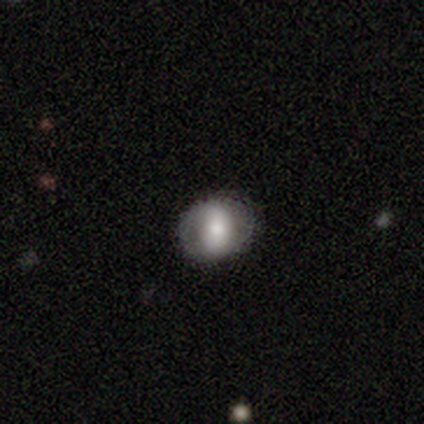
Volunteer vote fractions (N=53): This is possibly a smooth galaxy (55%). How rounded: likely round (62%). Merging: clearly none (82%).